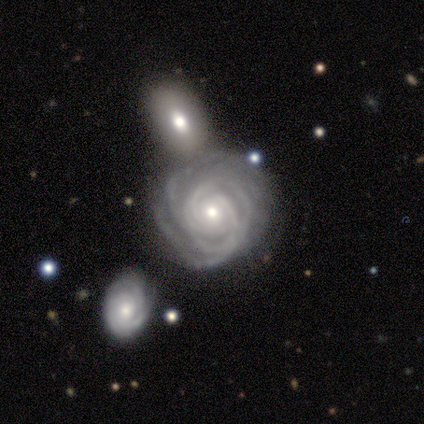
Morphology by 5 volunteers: This appears to be a featured or disk galaxy (100%) with no bar (100%), 4 (40%, tied with can't tell) tight (80%) spiral arms (100%) and a moderate central bulge (40%, tied with small). Merging: none (40%, tied with minor disturbance).